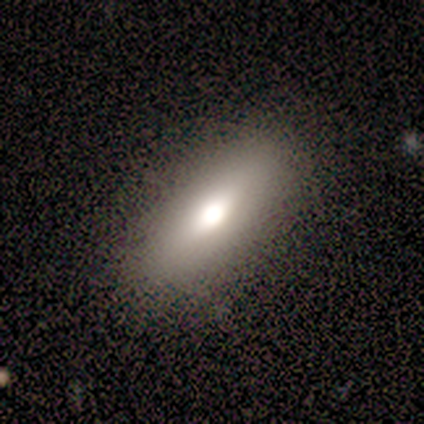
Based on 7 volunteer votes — smooth 86%, featured or disk 14%, star or artifact 0%. Down the decision tree: how rounded — in between (83%); merging — none (100%).